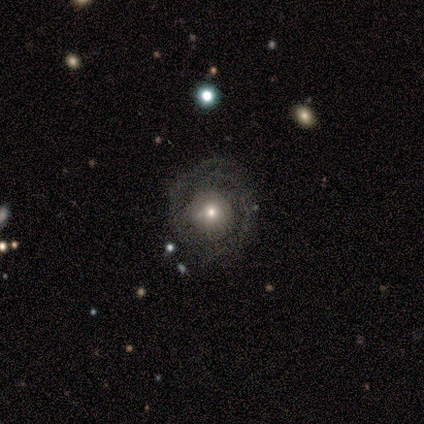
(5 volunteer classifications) A featured or disk galaxy (80%) with no bar (50%), 2 (100%) tight (67%) spiral arms (75%) and a moderate central bulge (50%, tied with small).

Vote fractions:
- Smooth or featured? featured or disk: 80% / smooth: 20% / star or artifact: 0%
- Edge-on disk? no: 100% / yes: 0%
- Bar? no: 50% / strong: 25% / weak: 25%
- Spiral arms? yes: 75% / no: 25%
- Spiral winding? tight: 67% / loose: 33% / medium: 0%
- Spiral arm count? 2: 100% / 1: 0% / 3: 0% / 4: 0% / more than 4: 0% / can't tell: 0%
- Bulge size? moderate: 50% (tied) / small: 50% (tied) / dominant: 0% / large: 0% / none: 0%
- Merging? none: 80% / minor disturbance: 20% / major disturbance: 0% / merger: 0%